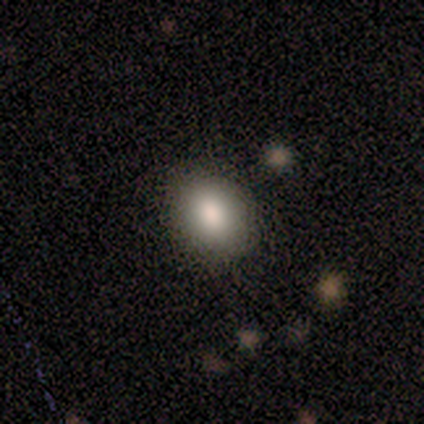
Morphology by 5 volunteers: This appears to be a smooth galaxy with no disk features (100%) that is in between round and cigar-shaped (80%). Merging: none (80%).